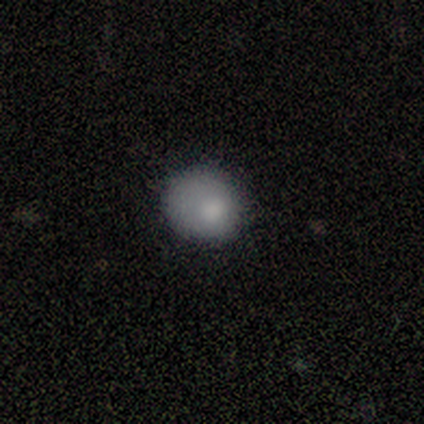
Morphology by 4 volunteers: Smooth or featured? 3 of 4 (75%) said smooth. How rounded? 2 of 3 (67%) said round. Merging? 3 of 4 (75%) said none.